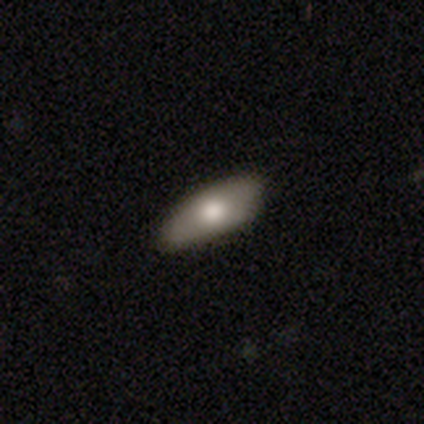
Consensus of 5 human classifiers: Overall: smooth (100%). How rounded: in between (60%; cigar-shaped 40%). Merging: none (60%; minor disturbance 20%).